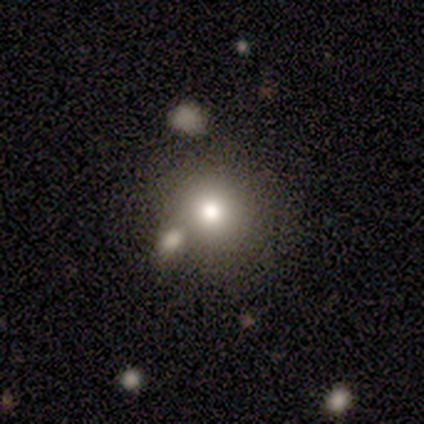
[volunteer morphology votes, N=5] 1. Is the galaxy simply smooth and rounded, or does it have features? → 100% smooth, 0% featured or disk, 0% star or artifact.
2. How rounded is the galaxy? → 80% round, 20% in between, 0% cigar-shaped.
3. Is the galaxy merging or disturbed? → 60% none, 40% merger, 0% minor disturbance, 0% major disturbance.